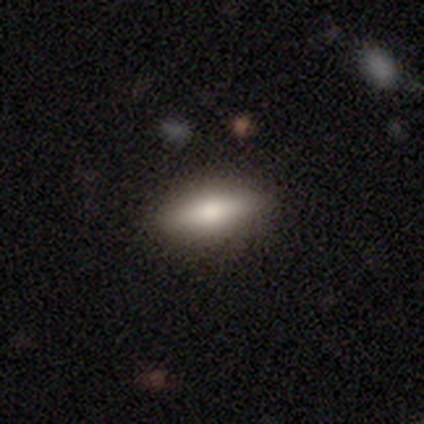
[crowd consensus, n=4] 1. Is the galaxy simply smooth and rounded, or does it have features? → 100% smooth, 0% featured or disk, 0% star or artifact.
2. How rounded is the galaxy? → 75% in between, 25% cigar-shaped, 0% round.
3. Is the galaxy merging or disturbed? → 100% none, 0% minor disturbance, 0% major disturbance, 0% merger.